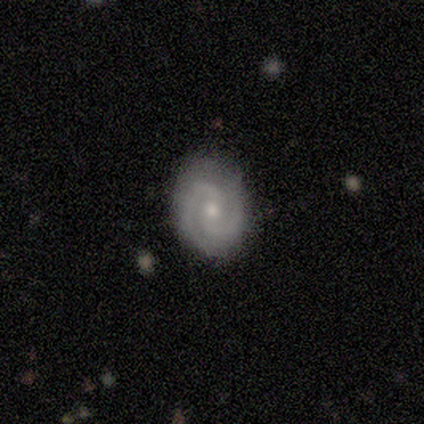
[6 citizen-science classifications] Smooth or featured? featured or disk (100%)
Edge-on disk? no (100%)
Bar? weak (50%, tied with no)
Spiral arms? yes (100%)
Spiral winding? tight (50%, tied with medium)
Spiral arm count? 2 (100%)
Bulge size? small (67%)
Merging? none (100%)